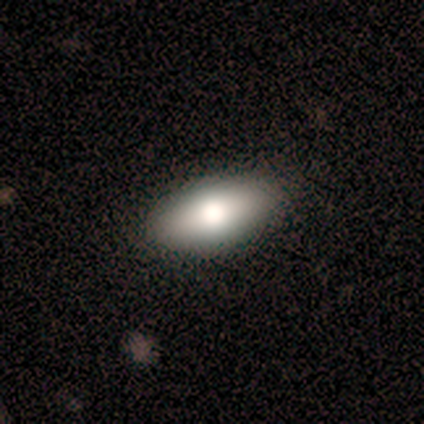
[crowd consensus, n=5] smooth 80%, featured or disk 20%, star or artifact 0%. Down the decision tree: how rounded — in between (50%, tied with cigar-shaped); merging — none (100%).